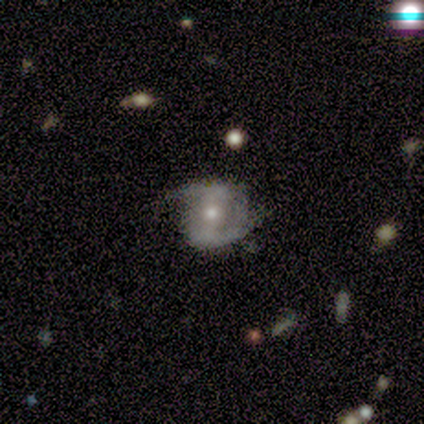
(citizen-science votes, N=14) Smooth or featured? 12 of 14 (86%) said featured or disk. Edge-on disk? 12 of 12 (100%) said no. Bar? 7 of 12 (58%) said weak. Spiral arms? 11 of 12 (92%) said yes. Spiral winding? 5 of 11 (45%, tied with loose) said medium. Spiral arm count? 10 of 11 (91%) said 2. Bulge size? 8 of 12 (67%) said moderate. Merging? 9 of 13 (69%) said none.